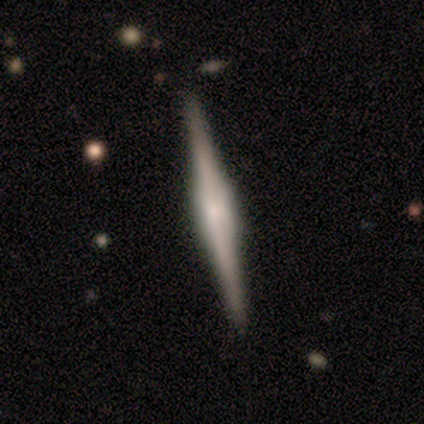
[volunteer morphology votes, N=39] Smooth or featured? featured or disk (85%)
Edge-on disk? yes (97%)
Edge-on bulge? boxy (66%)
Merging? none (67%)